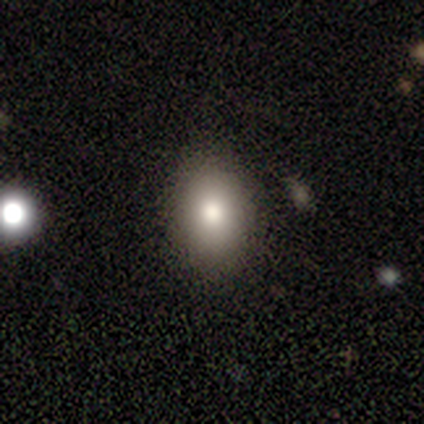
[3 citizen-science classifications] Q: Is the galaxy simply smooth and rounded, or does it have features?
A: smooth — 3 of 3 (100%).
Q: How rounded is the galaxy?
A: round — 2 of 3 (67%).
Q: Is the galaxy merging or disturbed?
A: none — 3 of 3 (100%).